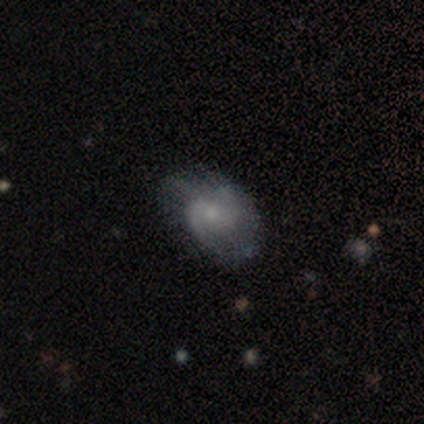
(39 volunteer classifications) Smooth or featured?
  - featured or disk: 64% *
  - smooth: 31%
  - star or artifact: 5%
Edge-on disk?
  - no: 100% *
  - yes: 0%
Bar?
  - no: 48% *
  - weak: 44%
  - strong: 8%
Spiral arms?
  - yes: 92% *
  - no: 8%
Spiral winding?
  - medium: 52% *
  - loose: 35%
  - tight: 13%
Spiral arm count?
  - 2: 78% *
  - 3: 9%
  - can't tell: 9%
  - 1: 4%
  - 4: 0%
  - more than 4: 0%
Bulge size?
  - small: 60% *
  - moderate: 28%
  - dominant: 4%
  - large: 4%
  - none: 4%
Merging?
  - none: 65% *
  - minor disturbance: 19%
  - major disturbance: 16%
  - merger: 0%